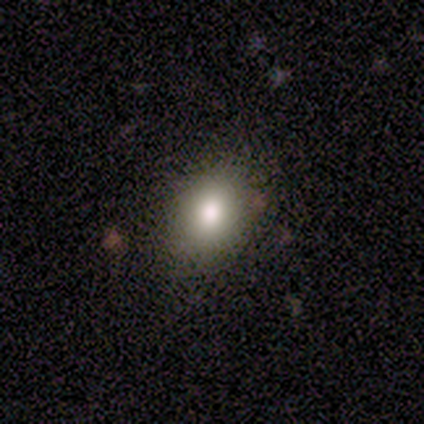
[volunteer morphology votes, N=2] smooth 100%, featured or disk 0%, star or artifact 0%. Down the decision tree: how rounded — in between (100%); merging — none (100%).